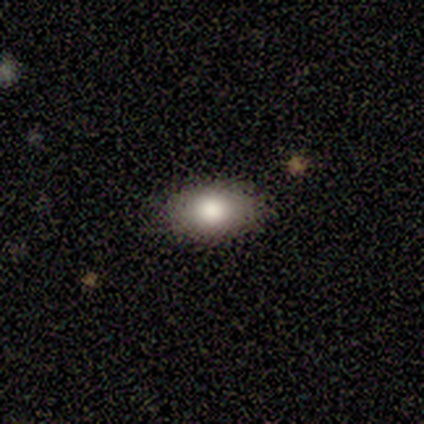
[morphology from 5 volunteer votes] A smooth galaxy with no disk features (100%) that is in between round and cigar-shaped (80%).

Vote fractions:
- Smooth or featured? smooth: 100% / featured or disk: 0% / star or artifact: 0%
- How rounded? in between: 80% / round: 20% / cigar-shaped: 0%
- Merging? none: 60% / minor disturbance: 40% / major disturbance: 0% / merger: 0%